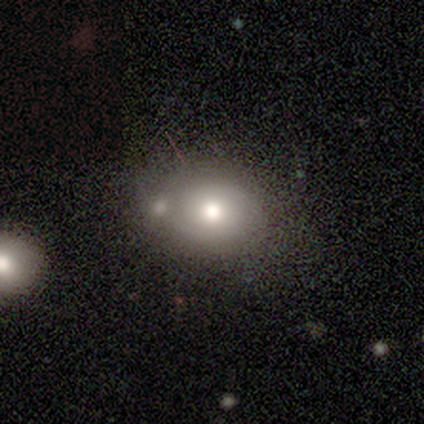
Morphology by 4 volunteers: Smooth or featured? 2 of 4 (50%) said smooth. How rounded? 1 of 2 (50%, tied with in between) said round. Merging? 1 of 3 (33%, tied with minor disturbance and major disturbance) said none.